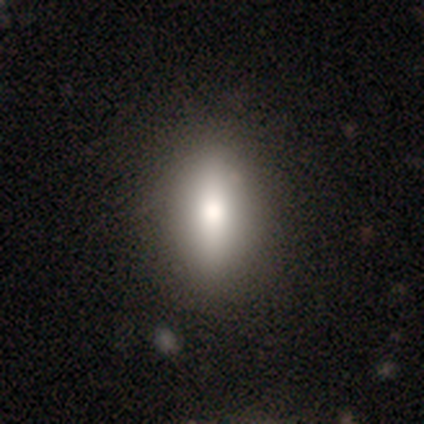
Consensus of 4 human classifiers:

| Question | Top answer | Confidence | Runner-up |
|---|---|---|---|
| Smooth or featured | smooth | 50% | tied: featured or disk (50%) |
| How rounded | in between | 100% | — |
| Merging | none | 100% | — |